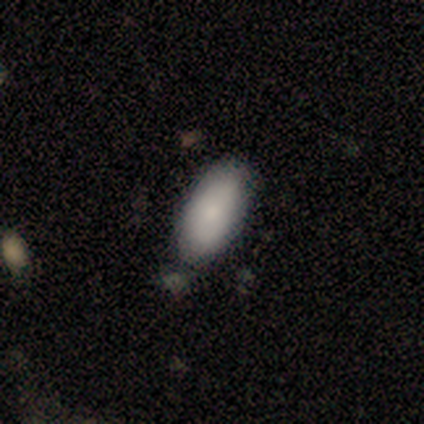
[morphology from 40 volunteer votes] Volunteers were most divided on "merging": none: 64%, merger: 10%, minor disturbance: 5%, major disturbance: 3%. More confident: how rounded — in between (94%); smooth or featured — smooth (85%).